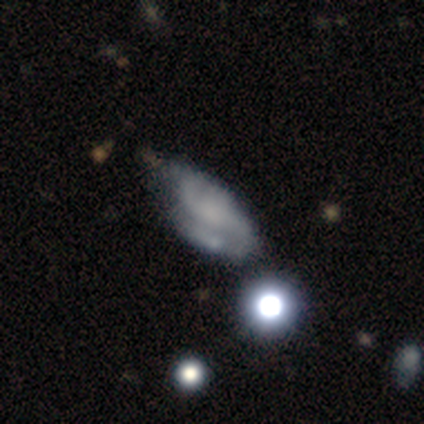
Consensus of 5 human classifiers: This appears to be a featured or disk galaxy (100%) with a weak bar (50%, tied with no), 2 (100%) tight (50%, tied with medium) spiral arms (100%) and a small central bulge (50%, tied with none). Merging: none (40%, tied with minor disturbance).